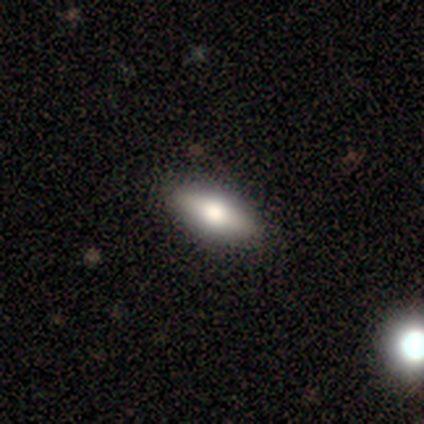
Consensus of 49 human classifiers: Overall: smooth (67%; featured or disk 33%). How rounded: in between (85%). Merging: none (94%).